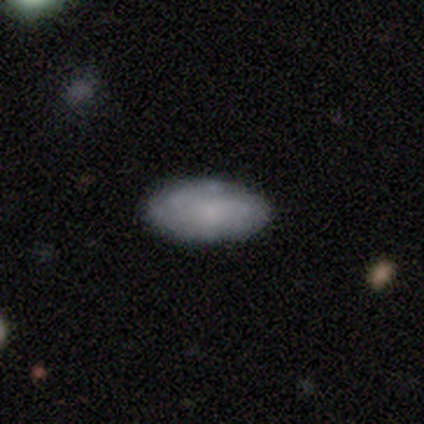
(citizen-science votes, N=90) Smooth or featured: smooth — 52% (featured or disk — 41%)
How rounded: in between — 91% (cigar-shaped — 9%)
Merging: none — 88% (minor disturbance — 10%)